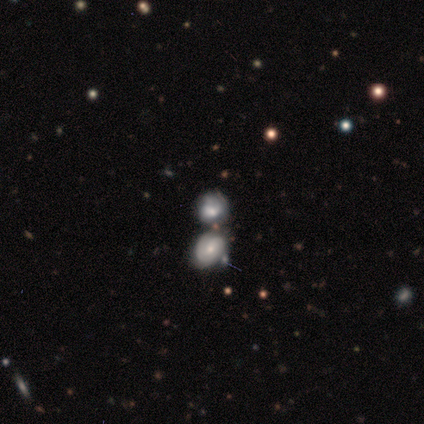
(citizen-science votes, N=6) Smooth or featured? featured or disk (83%)
Edge-on disk? no (100%)
Bar? no (80%)
Spiral arms? yes (100%)
Spiral winding? tight (60%)
Spiral arm count? can't tell (60%)
Bulge size? moderate (60%)
Merging? merger (50%)